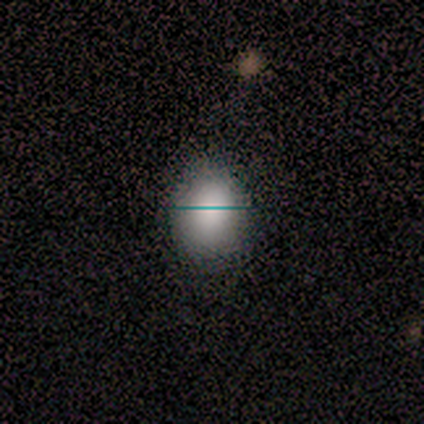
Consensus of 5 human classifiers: Volunteers were most divided on "how rounded": in between: 67%, round: 33%, cigar-shaped: 0%. More confident: merging — none (100%); smooth or featured — smooth (60%).